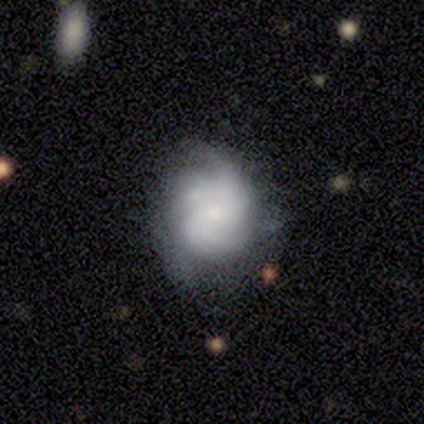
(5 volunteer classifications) featured or disk 100%, smooth 0%, star or artifact 0%. Down the decision tree: edge-on disk — no (100%); bar — no (100%); spiral arms — yes (60%); spiral arm count — can't tell (67%); spiral winding — tight (67%); bulge size — small (100%); merging — none (40%, tied with minor disturbance).